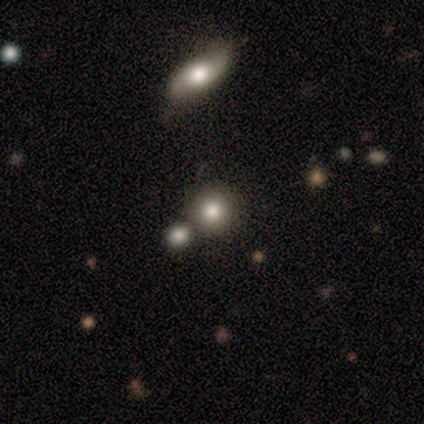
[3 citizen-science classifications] This appears to be a smooth galaxy with no disk features (67%) that is round (100%). Merging: none (33%, tied with minor disturbance and major disturbance).